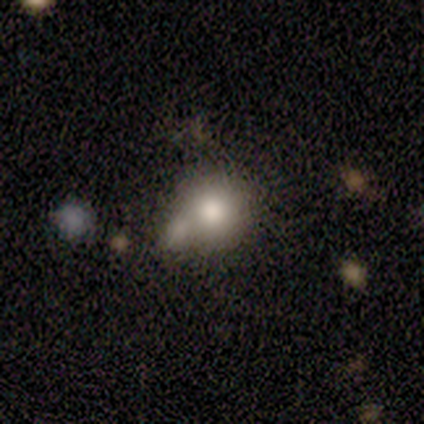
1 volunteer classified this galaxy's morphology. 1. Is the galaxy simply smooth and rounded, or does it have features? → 100% smooth, 0% featured or disk, 0% star or artifact.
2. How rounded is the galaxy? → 100% in between, 0% round, 0% cigar-shaped.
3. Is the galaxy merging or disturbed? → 100% merger, 0% none, 0% minor disturbance, 0% major disturbance.